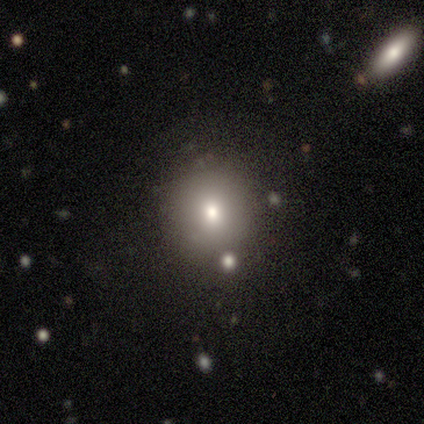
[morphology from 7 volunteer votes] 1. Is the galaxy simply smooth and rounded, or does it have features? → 71% smooth, 14% featured or disk, 14% star or artifact.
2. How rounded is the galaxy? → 100% round, 0% in between, 0% cigar-shaped.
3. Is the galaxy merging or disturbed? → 50% none, 33% minor disturbance, 17% merger, 0% major disturbance.